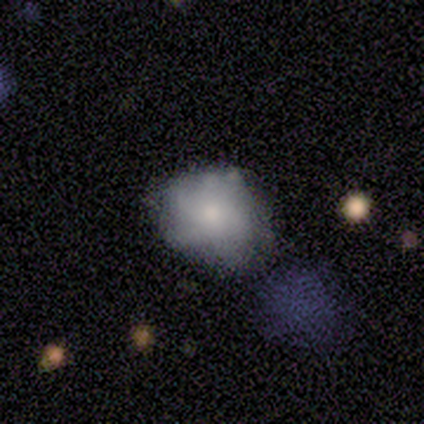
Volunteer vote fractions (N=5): Volunteers were most divided on "smooth or featured" (2-way tie): smooth: 40%, star or artifact: 40%, featured or disk: 20%; "merging" (3-way tie): none: 33%, minor disturbance: 33%, major disturbance: 33%, merger: 0%. More confident: how rounded — round (100%).